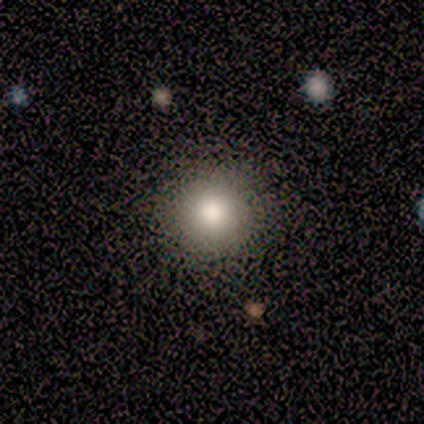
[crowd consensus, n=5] A smooth galaxy with no disk features (100%) that is round (80%).

Vote fractions:
- Smooth or featured? smooth: 100% / featured or disk: 0% / star or artifact: 0%
- How rounded? round: 80% / in between: 20% / cigar-shaped: 0%
- Merging? none: 100% / minor disturbance: 0% / major disturbance: 0% / merger: 0%